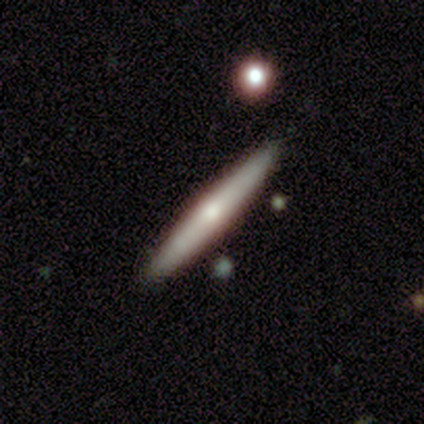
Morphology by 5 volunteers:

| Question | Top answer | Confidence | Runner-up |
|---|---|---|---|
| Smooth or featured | smooth | 40% | tied: featured or disk (40%) |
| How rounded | cigar-shaped | 100% | — |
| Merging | none | 75% | minor disturbance (25%) |